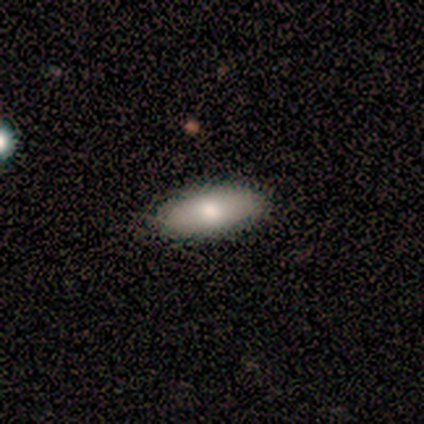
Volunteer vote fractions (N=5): Smooth or featured?
  - featured or disk: 60% *
  - smooth: 40%
  - star or artifact: 0%
Edge-on disk?
  - no: 100% *
  - yes: 0%
Bar?
  - no: 67% *
  - weak: 33%
  - strong: 0%
Spiral arms?
  - no: 100% *
  - yes: 0%
Bulge size?
  - moderate: 67% *
  - large: 33%
  - dominant: 0%
  - small: 0%
  - none: 0%
Merging?
  - none: 60% *
  - minor disturbance: 20%
  - major disturbance: 20%
  - merger: 0%